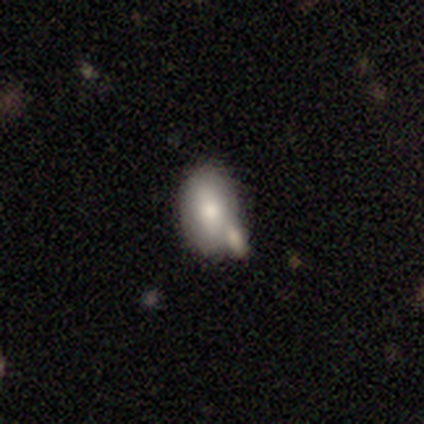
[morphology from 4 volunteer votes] Volunteers were most divided on "how rounded": in between: 67%, round: 33%, cigar-shaped: 0%. More confident: smooth or featured — smooth (75%); merging — merger (75%).